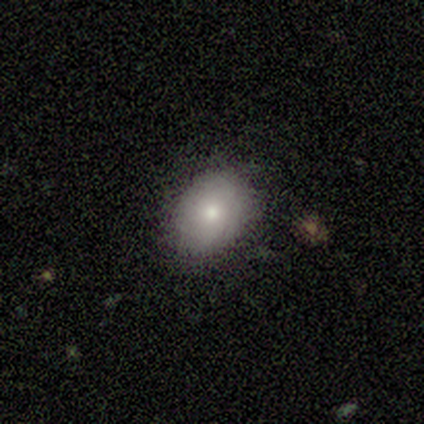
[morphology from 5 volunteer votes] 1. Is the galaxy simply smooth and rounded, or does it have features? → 100% smooth, 0% featured or disk, 0% star or artifact.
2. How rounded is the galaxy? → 60% in between, 40% round, 0% cigar-shaped.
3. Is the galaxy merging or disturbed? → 80% none, 20% minor disturbance, 0% major disturbance, 0% merger.